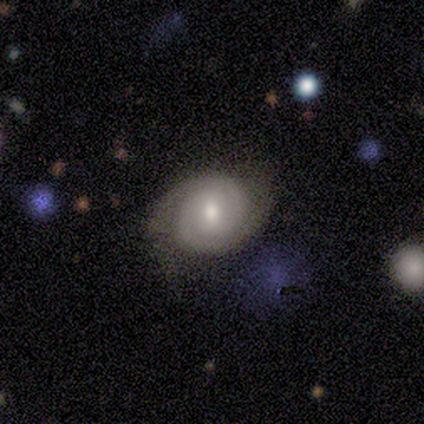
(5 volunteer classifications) Smooth or featured?
  - featured or disk: 100% *
  - smooth: 0%
  - star or artifact: 0%
Edge-on disk?
  - no: 80% *
  - yes: 20%
Bar?
  - weak: 75% *
  - no: 25%
  - strong: 0%
Spiral arms?
  - yes: 75% *
  - no: 25%
Spiral winding?
  - tight: 67% *
  - loose: 33%
  - medium: 0%
Spiral arm count?
  - 2: 100% *
  - 1: 0%
  - 3: 0%
  - 4: 0%
  - more than 4: 0%
  - can't tell: 0%
Bulge size?
  - small: 75% *
  - moderate: 25%
  - dominant: 0%
  - large: 0%
  - none: 0%
Merging?
  - none: 40% * (tied)
  - minor disturbance: 40% * (tied)
  - major disturbance: 20%
  - merger: 0%